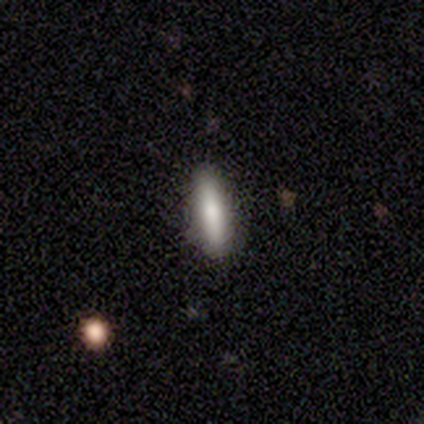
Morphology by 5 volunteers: Smooth or featured?
  - smooth: 100% *
  - featured or disk: 0%
  - star or artifact: 0%
How rounded?
  - cigar-shaped: 80% *
  - in between: 20%
  - round: 0%
Merging?
  - none: 100% *
  - minor disturbance: 0%
  - major disturbance: 0%
  - merger: 0%